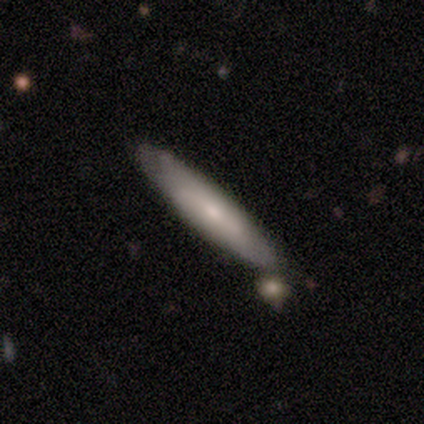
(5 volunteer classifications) Smooth or featured?
  - smooth: 60% *
  - featured or disk: 40%
  - star or artifact: 0%
How rounded?
  - cigar-shaped: 100% *
  - round: 0%
  - in between: 0%
Merging?
  - none: 40% * (tied)
  - minor disturbance: 40% * (tied)
  - merger: 20%
  - major disturbance: 0%